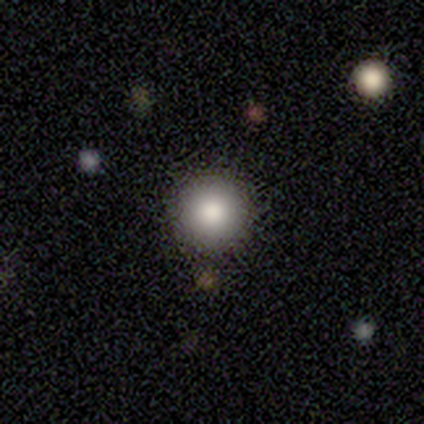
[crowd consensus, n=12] A smooth galaxy with no disk features (92%) that is round (100%).

Vote fractions:
- Smooth or featured? smooth: 92% / star or artifact: 8% / featured or disk: 0%
- How rounded? round: 100% / in between: 0% / cigar-shaped: 0%
- Merging? none: 100% / minor disturbance: 0% / major disturbance: 0% / merger: 0%